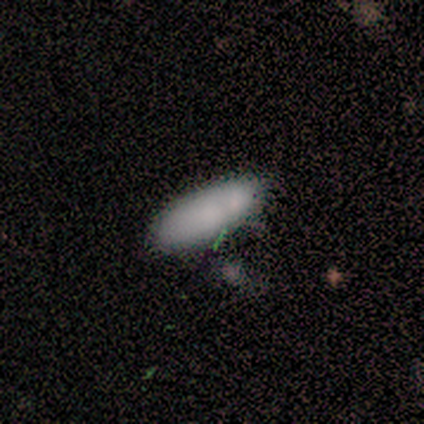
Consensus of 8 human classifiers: A smooth galaxy with no disk features (88%) that is in between round and cigar-shaped (86%).

Vote fractions:
- Smooth or featured? smooth: 88% / star or artifact: 12% / featured or disk: 0%
- How rounded? in between: 86% / cigar-shaped: 14% / round: 0%
- Merging? none: 43% (tied) / minor disturbance: 43% (tied) / merger: 14% / major disturbance: 0%